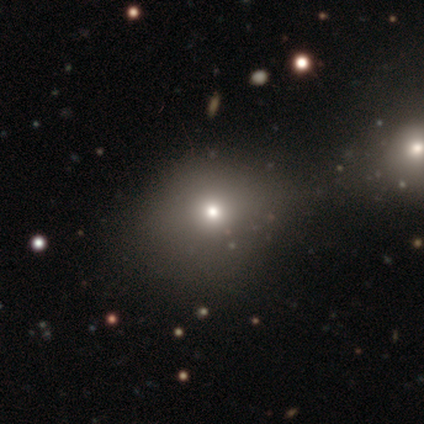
This appears to be a smooth galaxy with no disk features (71%) that is round (100%). Merging: none (80%).